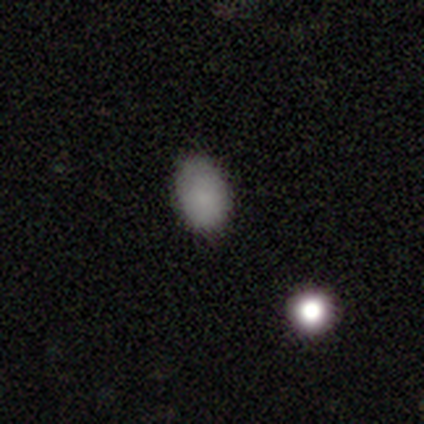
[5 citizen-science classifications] Smooth or featured: smooth — 80% (star or artifact — 20%)
How rounded: in between — 75% (round — 25%)
Merging: none — 100%